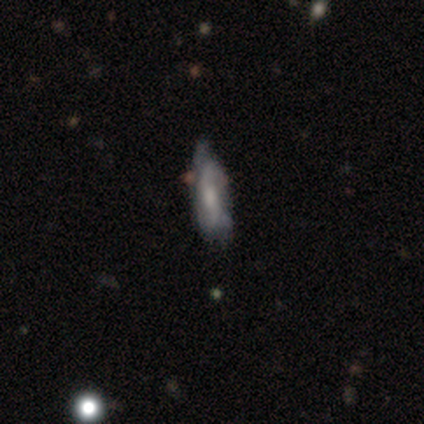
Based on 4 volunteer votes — Volunteers were most divided on "smooth or featured" (2-way tie): smooth: 50%, featured or disk: 50%, star or artifact: 0%; "merging" (2-way tie): none: 50%, minor disturbance: 50%, major disturbance: 0%, merger: 0%. More confident: how rounded — cigar-shaped (100%).